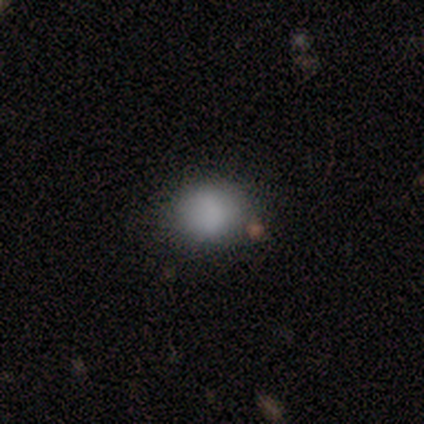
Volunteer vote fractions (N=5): smooth_or_featured: smooth (p=0.80) [alt: star or artifact p=0.20]
how_rounded: in between (p=0.75) [alt: round p=0.25]
merging: none (p=0.50) [tied with: minor disturbance p=0.50]